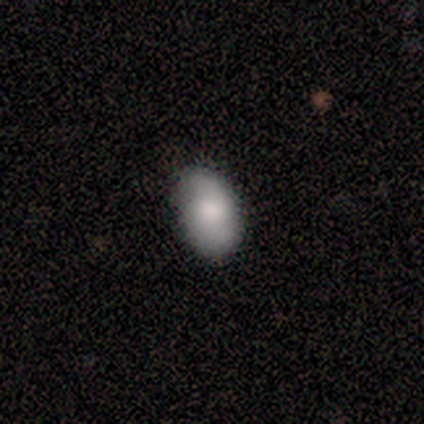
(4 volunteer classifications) smooth 75%, featured or disk 25%, star or artifact 0%. Down the decision tree: how rounded — in between (100%); merging — none (100%).